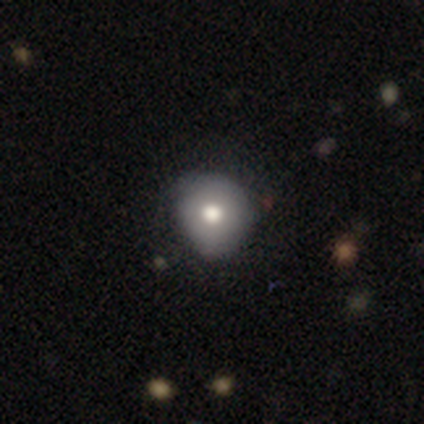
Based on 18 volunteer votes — Smooth or featured?
  - smooth: 67% *
  - featured or disk: 28%
  - star or artifact: 6%
How rounded?
  - round: 92% *
  - in between: 8%
  - cigar-shaped: 0%
Merging?
  - none: 71% *
  - minor disturbance: 18%
  - major disturbance: 6%
  - merger: 6%